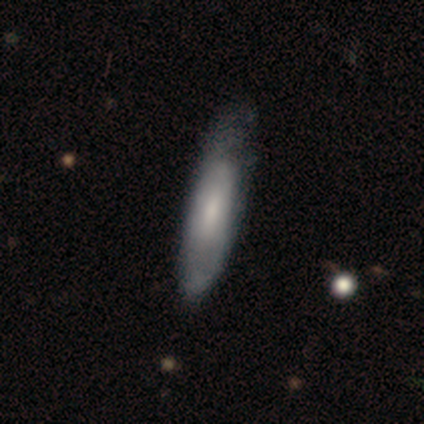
smooth-or-featured: smooth: 59% | featured or disk: 41% | star or artifact: 0%
  how-rounded: cigar-shaped: 55% | in between: 45% | round: 0%
  merging: none: 30% | minor disturbance: 27% | major disturbance: 11% | merger: 0%